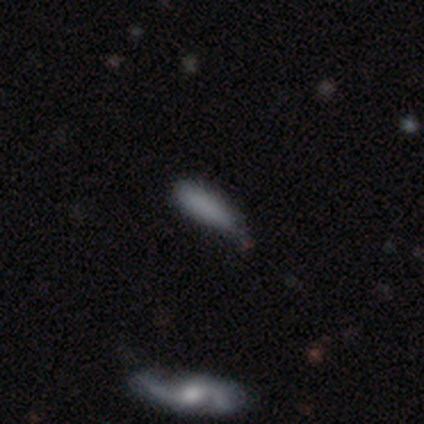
Overall: smooth (100%). How rounded: in between (60%; cigar-shaped 40%). Merging: minor disturbance (100%).